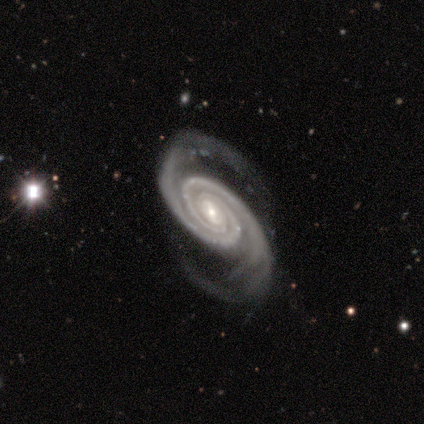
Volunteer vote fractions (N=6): This is clearly a featured or disk galaxy (100%). It is clearly not viewed edge-on (100%). Bar: possibly weak (50%, tied with no). Spiral arm pattern: clearly yes (100%). Spiral arm count: clearly 2 (100%). Spiral winding: possibly tight (50%, tied with medium). Central bulge: clearly small (83%). Merging: clearly none (100%).